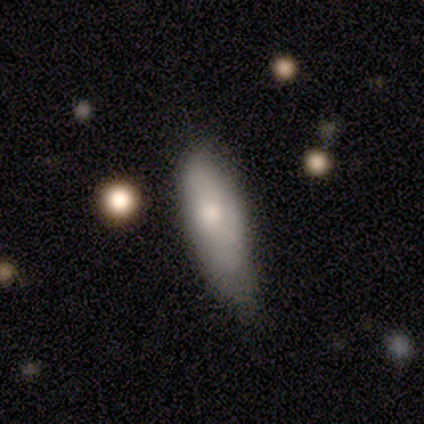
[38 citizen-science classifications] Overall: smooth (66%; featured or disk 29%). How rounded: in between (72%). Merging: none (39%; minor disturbance 22%).